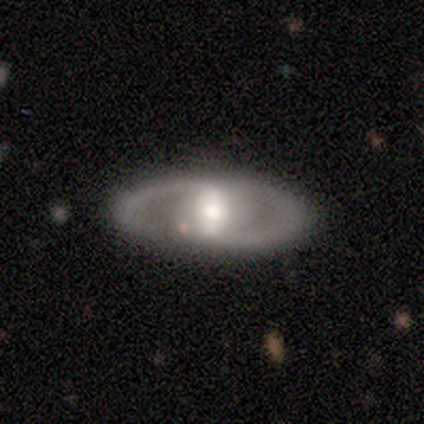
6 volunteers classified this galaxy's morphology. featured or disk 83%, smooth 17%, star or artifact 0%. Down the decision tree: edge-on disk — no (100%); bar — strong (40%, tied with no); spiral arms — no (60%); bulge size — large (40%, tied with moderate); merging — none (100%).